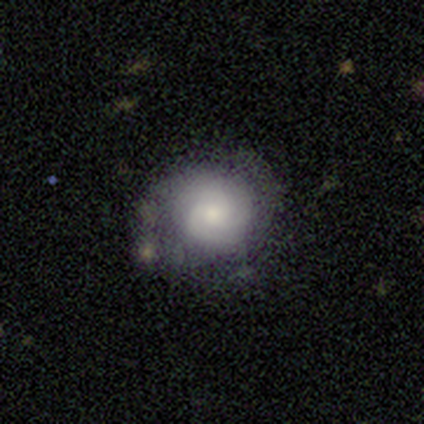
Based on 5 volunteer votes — Q: Smooth or featured?
A: featured or disk (80%); runner-up: smooth (20%)
Q: Edge-on disk?
A: no (100%)
Q: Bar?
A: no (75%); runner-up: weak (25%)
Q: Spiral arms?
A: yes (100%)
Q: Spiral winding?
A: tight (75%); runner-up: medium (25%)
Q: Spiral arm count?
A: 2 (50%); runner-up: 3 (25%)
Q: Bulge size?
A: dominant (25%); tied with: large (25%); moderate (25%); small (25%)
Q: Merging?
A: none (60%); runner-up: minor disturbance (20%)